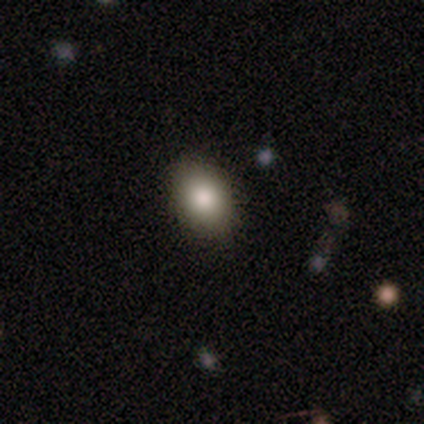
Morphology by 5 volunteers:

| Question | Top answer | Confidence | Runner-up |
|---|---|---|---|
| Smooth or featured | smooth | 80% | featured or disk (20%) |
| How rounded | round | 50% | tied: in between (50%) |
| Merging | none | 80% | major disturbance (20%) |